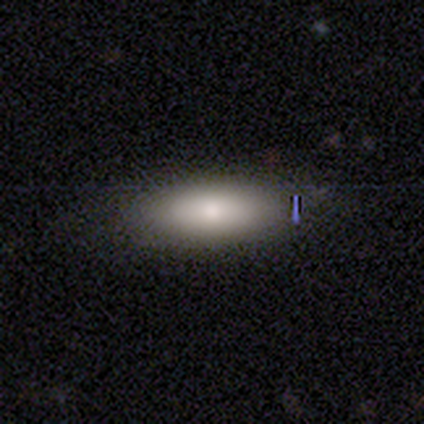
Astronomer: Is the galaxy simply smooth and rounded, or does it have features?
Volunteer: smooth — 75%.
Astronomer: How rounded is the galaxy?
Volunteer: in between — 93%.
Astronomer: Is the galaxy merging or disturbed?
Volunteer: none — 75%.